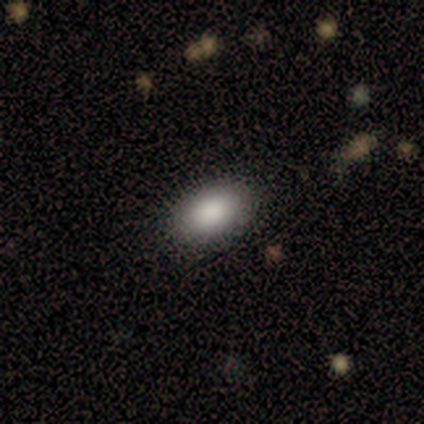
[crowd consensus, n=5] A smooth galaxy with no disk features (80%) that is in between round and cigar-shaped (100%).

Vote fractions:
- Smooth or featured? smooth: 80% / star or artifact: 20% / featured or disk: 0%
- How rounded? in between: 100% / round: 0% / cigar-shaped: 0%
- Merging? none: 75% / minor disturbance: 25% / major disturbance: 0% / merger: 0%